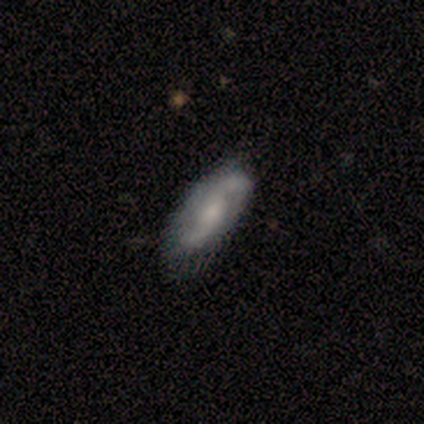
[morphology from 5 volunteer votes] featured or disk 80%, smooth 20%, star or artifact 0%. Down the decision tree: edge-on disk — no (75%); bar — no (67%); spiral arms — yes (67%); spiral arm count — 2 (100%); spiral winding — loose (100%); bulge size — small (67%); merging — none (100%).